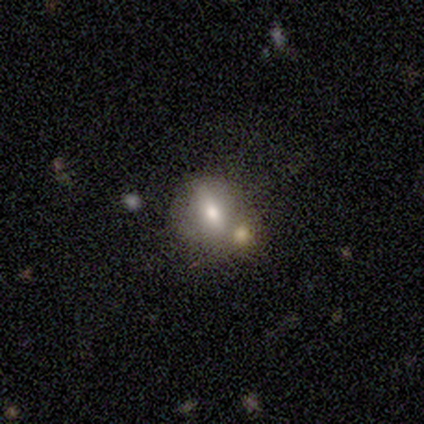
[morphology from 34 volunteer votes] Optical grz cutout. It shows a smooth galaxy with no disk features (65%) that is in between round and cigar-shaped (50%). Merging: merger (38%).